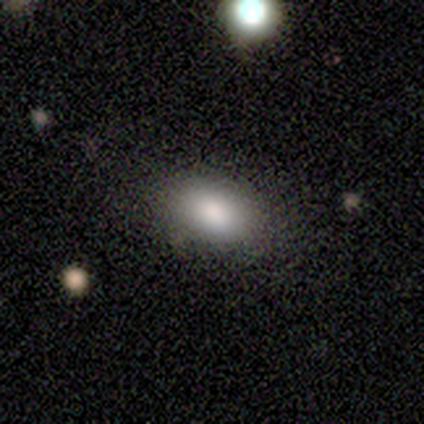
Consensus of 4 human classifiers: Q: Smooth or featured?
A: smooth (100%)
Q: How rounded?
A: in between (100%)
Q: Merging?
A: none (100%)